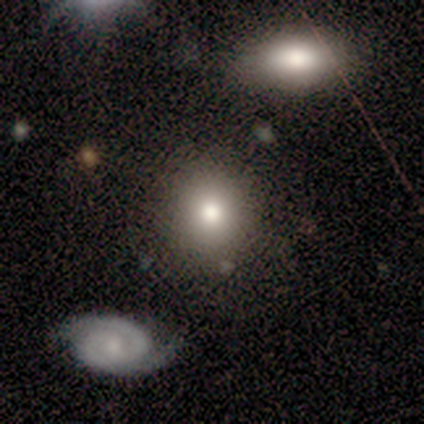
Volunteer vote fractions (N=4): smooth-or-featured: smooth: 100% | featured or disk: 0% | star or artifact: 0%
  how-rounded: round: 75% | in between: 25% | cigar-shaped: 0%
  merging: none: 100% | minor disturbance: 0% | major disturbance: 0% | merger: 0%